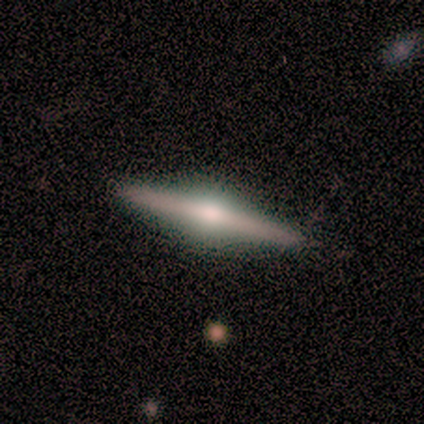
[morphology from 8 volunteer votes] type=featured or disk (88%); edge-on=yes (100%); edge-on bulge=rounded (86%); merging=none (88%).